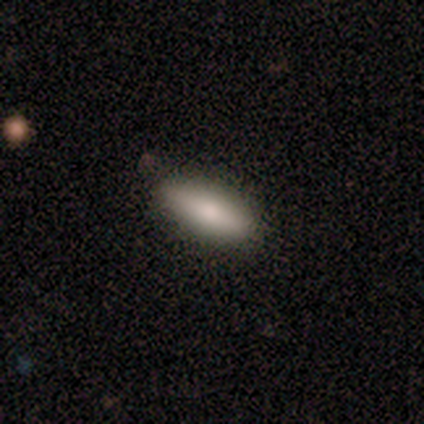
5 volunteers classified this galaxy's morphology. Q: Smooth or featured?
A: smooth (100%)
Q: How rounded?
A: in between (60%); runner-up: cigar-shaped (40%)
Q: Merging?
A: none (60%); runner-up: minor disturbance (40%)